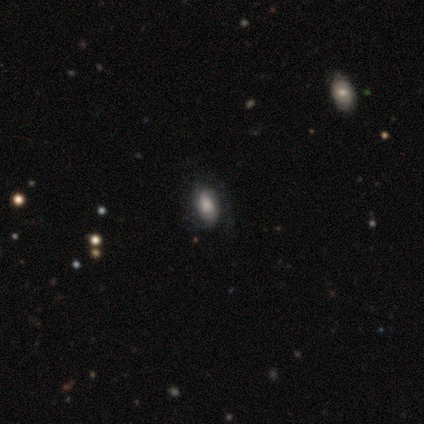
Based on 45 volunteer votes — smooth 49% (tied), featured or disk 49% (tied), star or artifact 2%. Down the decision tree: how rounded — in between (95%); merging — none (73%).